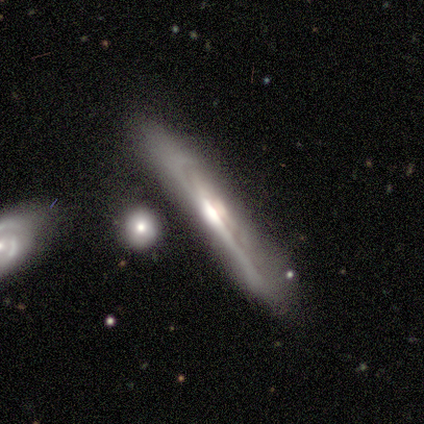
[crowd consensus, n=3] A featured or disk galaxy (67%) viewed edge-on (100%) with a rounded central bulge (100%).

Vote fractions:
- Smooth or featured? featured or disk: 67% / smooth: 33% / star or artifact: 0%
- Edge-on disk? yes: 100% / no: 0%
- Edge-on bulge? rounded: 100% / boxy: 0% / none: 0%
- Merging? none: 33% (tied) / minor disturbance: 33% (tied) / major disturbance: 33% (tied) / merger: 0%